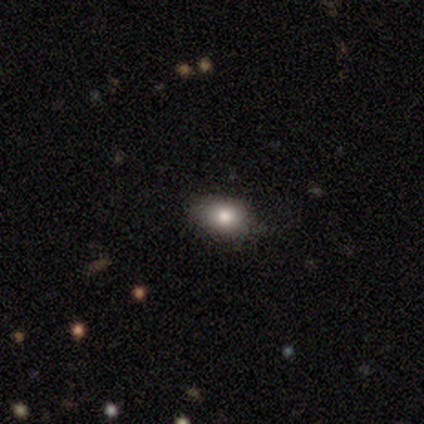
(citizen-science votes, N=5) Overall: smooth (80%). How rounded: in between (100%). Merging: none (60%; minor disturbance 40%).